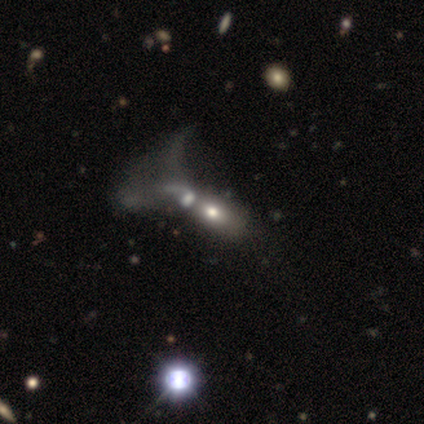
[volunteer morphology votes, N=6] Smooth or featured? smooth (33%, tied with featured or disk and star or artifact)
How rounded? in between (100%)
Merging? merger (75%)